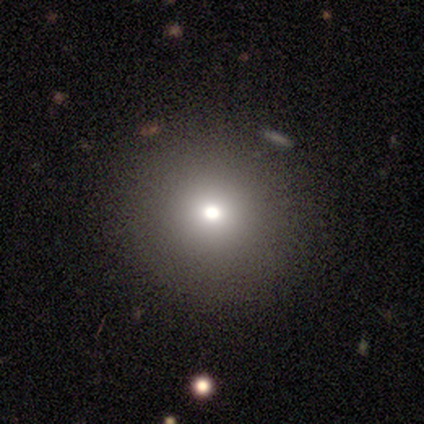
Q: Smooth or featured?
A: smooth (82%); runner-up: featured or disk (16%)
Q: How rounded?
A: round (87%); runner-up: in between (13%)
Q: Merging?
A: none (86%); runner-up: major disturbance (11%)